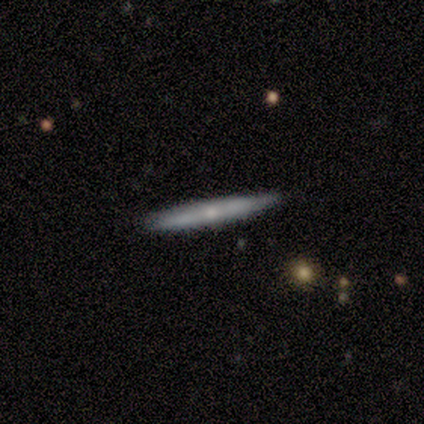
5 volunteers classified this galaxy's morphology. smooth-or-featured: featured or disk: 60% | smooth: 40% | star or artifact: 0%
  disk-edge-on: yes: 100% | no: 0%
    edge-on-bulge: rounded: 67% | none: 33% | boxy: 0%
  merging: none: 80% | minor disturbance: 20% | major disturbance: 0% | merger: 0%